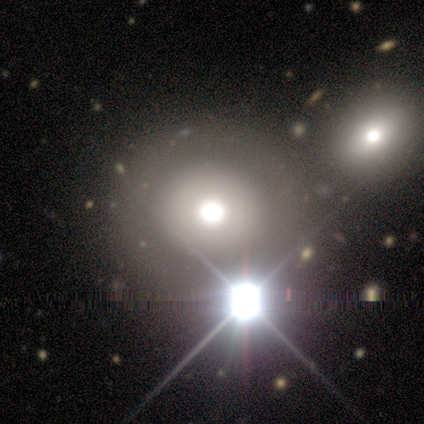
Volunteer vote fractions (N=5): Overall: smooth (40%, tied with star or artifact). How rounded: round (100%). Merging: none (100%).